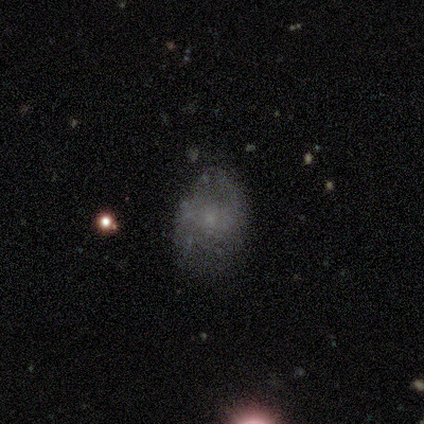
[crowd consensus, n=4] Smooth or featured? 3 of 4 (75%) said smooth. How rounded? 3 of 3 (100%) said in between. Merging? 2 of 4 (50%, tied with minor disturbance) said none.